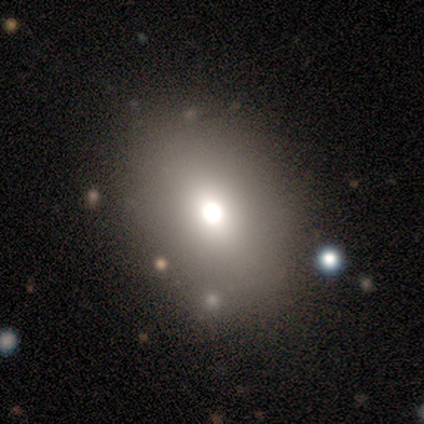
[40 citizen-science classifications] Volunteers were most divided on "how rounded": in between: 56%, round: 44%, cigar-shaped: 0%. More confident: merging — none (89%); smooth or featured — smooth (80%).